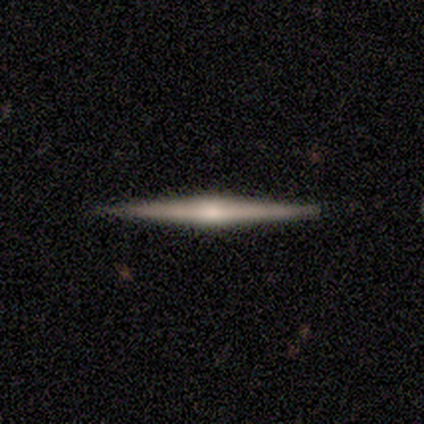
smooth-or-featured: smooth: 60% | featured or disk: 40% | star or artifact: 0%
  how-rounded: cigar-shaped: 100% | round: 0% | in between: 0%
  merging: none: 100% | minor disturbance: 0% | major disturbance: 0% | merger: 0%